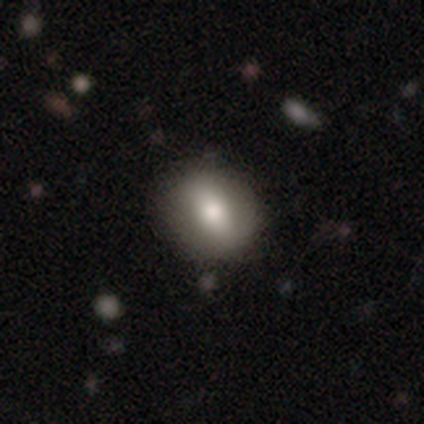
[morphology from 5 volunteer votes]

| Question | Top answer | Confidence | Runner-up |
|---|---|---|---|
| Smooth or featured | smooth | 60% | star or artifact (40%) |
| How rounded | round | 100% | — |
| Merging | none | 100% | — |